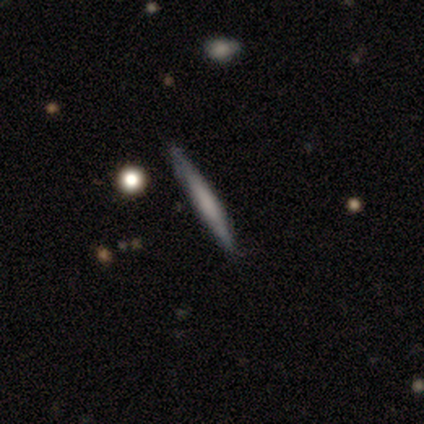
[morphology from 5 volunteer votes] Smooth or featured?
  - smooth: 60% *
  - featured or disk: 40%
  - star or artifact: 0%
How rounded?
  - cigar-shaped: 100% *
  - round: 0%
  - in between: 0%
Merging?
  - none: 80% *
  - minor disturbance: 20%
  - major disturbance: 0%
  - merger: 0%